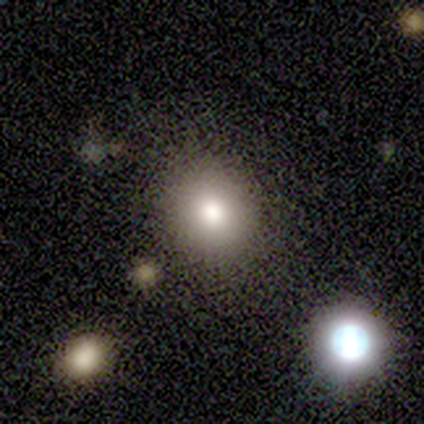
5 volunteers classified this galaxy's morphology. smooth 40% (tied), star or artifact 40% (tied), featured or disk 20%. Down the decision tree: how rounded — round (50%, tied with in between); merging — none (67%).